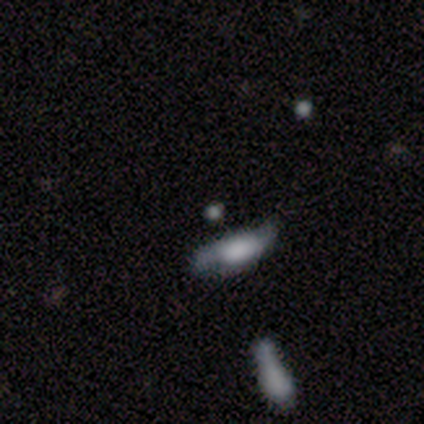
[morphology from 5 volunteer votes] Overall: smooth (60%; featured or disk 20%). How rounded: round (67%; in between 33%). Merging: none (75%).